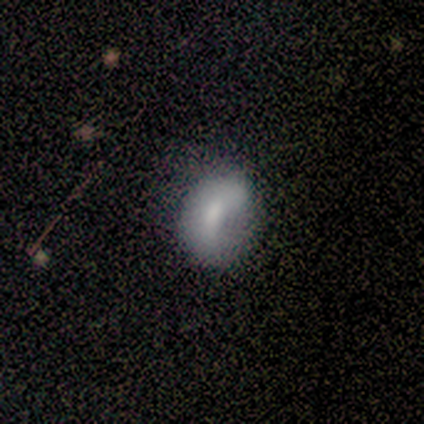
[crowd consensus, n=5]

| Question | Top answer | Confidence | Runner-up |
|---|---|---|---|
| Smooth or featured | featured or disk | 60% | smooth (40%) |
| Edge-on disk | no | 100% | — |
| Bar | weak | 67% | no (33%) |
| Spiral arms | no | 67% | yes (33%) |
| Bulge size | small | 67% | moderate (33%) |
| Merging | none | 60% | minor disturbance (20%) |